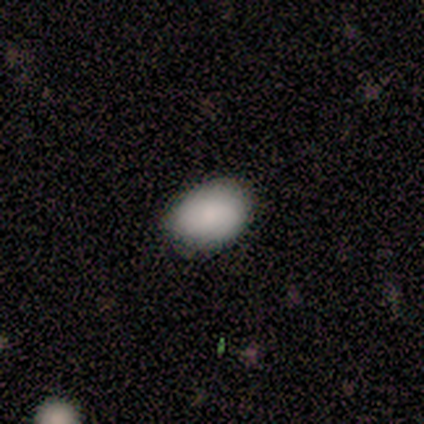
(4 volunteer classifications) A smooth galaxy with no disk features (100%) that is in between round and cigar-shaped (100%). Merging: none (75%).